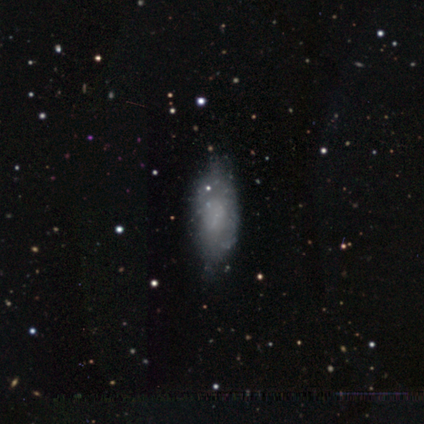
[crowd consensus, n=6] Q: Smooth or featured?
A: featured or disk (67%); runner-up: smooth (33%)
Q: Edge-on disk?
A: no (100%)
Q: Bar?
A: no (100%)
Q: Spiral arms?
A: no (100%)
Q: Bulge size?
A: none (100%)
Q: Merging?
A: none (83%); runner-up: major disturbance (17%)